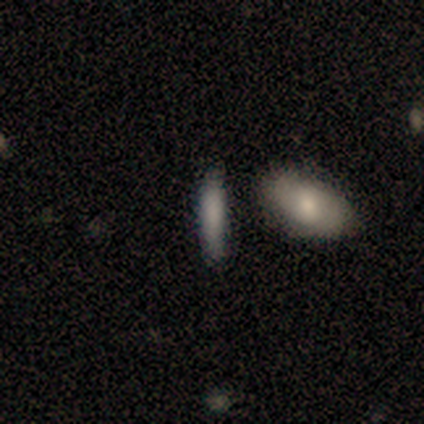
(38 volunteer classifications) A smooth galaxy with no disk features (76%) that is cigar-shaped (83%). Merging: none (83%).